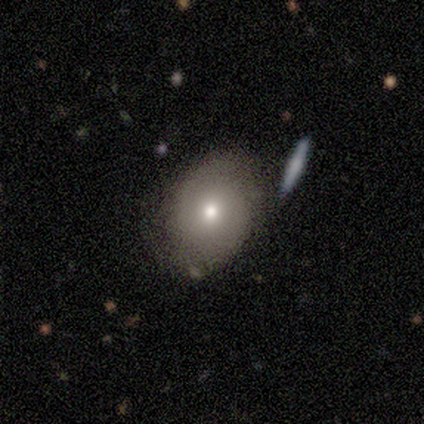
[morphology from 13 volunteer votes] Smooth or featured? smooth (69%)
How rounded? in between (89%)
Merging? none (75%)